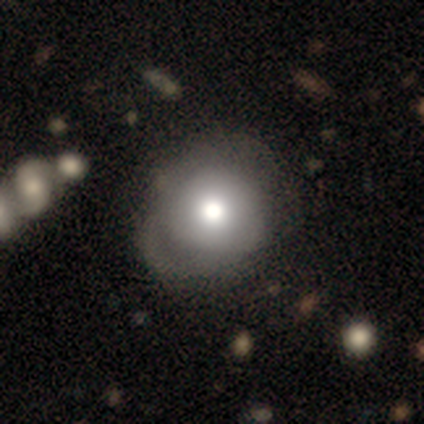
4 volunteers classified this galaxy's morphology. type=smooth (75%); roundness=round (100%); merging=minor disturbance (50%).